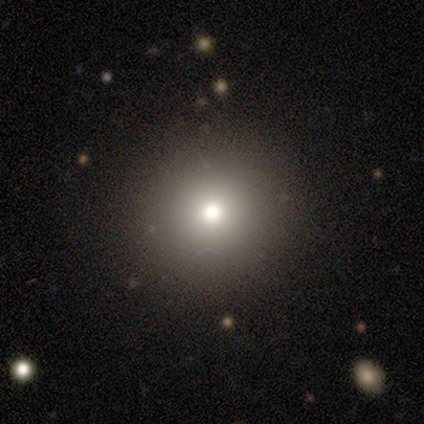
Smooth or featured? smooth (71%)
How rounded? round (100%)
Merging? none (83%)